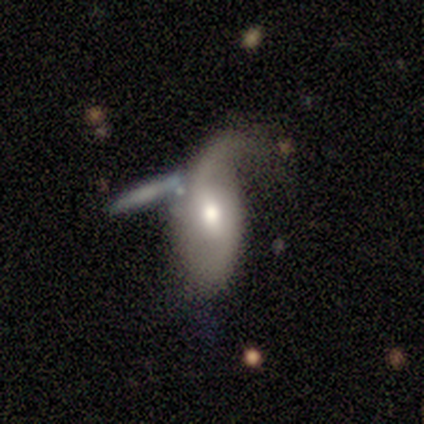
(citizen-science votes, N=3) Smooth or featured?
  - featured or disk: 67% *
  - smooth: 33%
  - star or artifact: 0%
Edge-on disk?
  - no: 100% *
  - yes: 0%
Bar?
  - strong: 50% * (tied)
  - weak: 50% * (tied)
  - no: 0%
Spiral arms?
  - yes: 100% *
  - no: 0%
Spiral winding?
  - loose: 100% *
  - tight: 0%
  - medium: 0%
Spiral arm count?
  - 2: 100% *
  - 1: 0%
  - 3: 0%
  - 4: 0%
  - more than 4: 0%
  - can't tell: 0%
Bulge size?
  - large: 50% * (tied)
  - moderate: 50% * (tied)
  - dominant: 0%
  - small: 0%
  - none: 0%
Merging?
  - none: 67% *
  - major disturbance: 33%
  - minor disturbance: 0%
  - merger: 0%